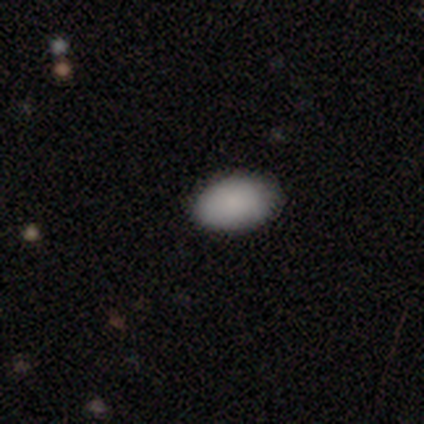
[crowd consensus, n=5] Overall: smooth (100%). How rounded: in between (60%; round 20%). Merging: none (100%).